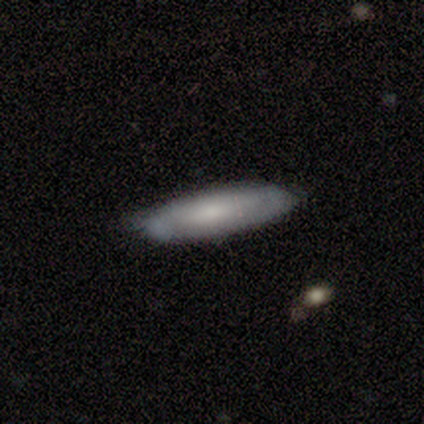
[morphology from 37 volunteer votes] Smooth or featured?
  - smooth: 68% *
  - featured or disk: 27%
  - star or artifact: 5%
How rounded?
  - cigar-shaped: 68% *
  - in between: 28%
  - round: 4%
Merging?
  - none: 60% *
  - minor disturbance: 31%
  - major disturbance: 6%
  - merger: 3%